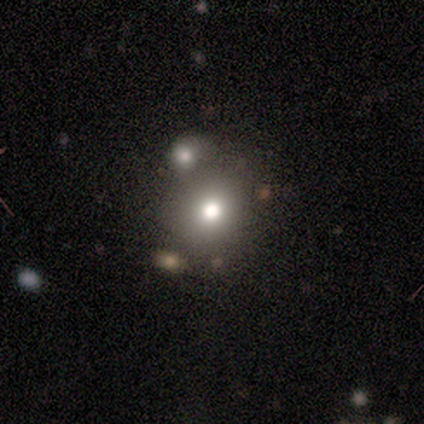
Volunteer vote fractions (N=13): This is likely a smooth galaxy (77%). How rounded: clearly round (100%). Merging: likely none (77%).